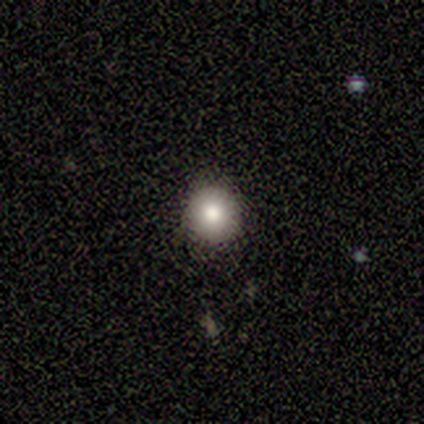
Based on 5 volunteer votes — smooth_or_featured: smooth (p=1.00)
how_rounded: round (p=1.00)
merging: none (p=1.00)